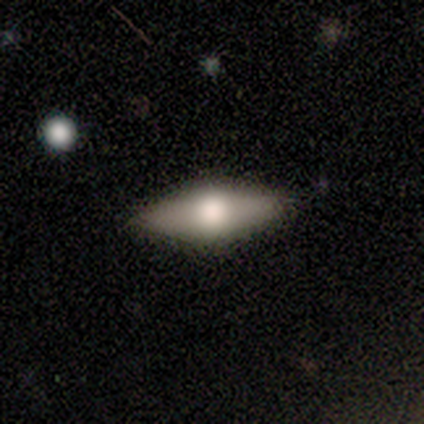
This appears to be a smooth galaxy with no disk features (50%, tied with featured or disk) that is in between round and cigar-shaped (50%, tied with cigar-shaped). Merging: none (100%).